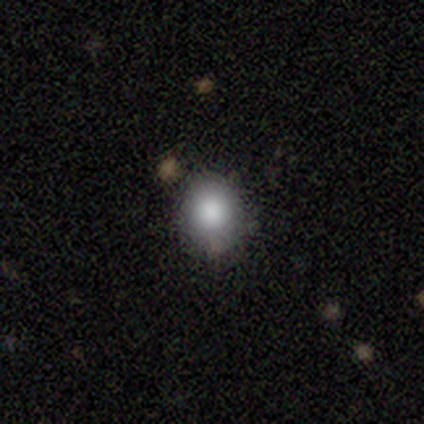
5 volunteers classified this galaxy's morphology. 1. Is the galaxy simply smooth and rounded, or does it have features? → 80% smooth, 20% star or artifact, 0% featured or disk.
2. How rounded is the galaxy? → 100% round, 0% in between, 0% cigar-shaped.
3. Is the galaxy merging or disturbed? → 75% none, 25% minor disturbance, 0% major disturbance, 0% merger.